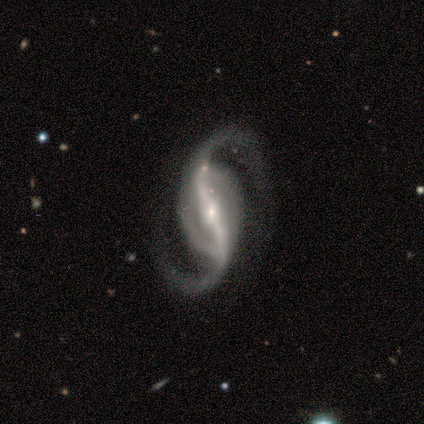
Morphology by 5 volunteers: A featured or disk galaxy (80%) with a strong bar (75%), 2 (100%) loose (75%) spiral arms (100%) and a small central bulge (75%).

Vote fractions:
- Smooth or featured? featured or disk: 80% / smooth: 20% / star or artifact: 0%
- Edge-on disk? no: 100% / yes: 0%
- Bar? strong: 75% / weak: 25% / no: 0%
- Spiral arms? yes: 100% / no: 0%
- Spiral winding? loose: 75% / medium: 25% / tight: 0%
- Spiral arm count? 2: 100% / 1: 0% / 3: 0% / 4: 0% / more than 4: 0% / can't tell: 0%
- Bulge size? small: 75% / moderate: 25% / dominant: 0% / large: 0% / none: 0%
- Merging? none: 100% / minor disturbance: 0% / major disturbance: 0% / merger: 0%